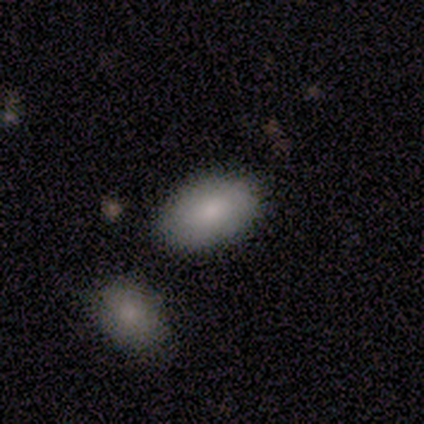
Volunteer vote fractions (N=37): A smooth galaxy with no disk features (86%) that is in between round and cigar-shaped (88%). Merging: none (81%).